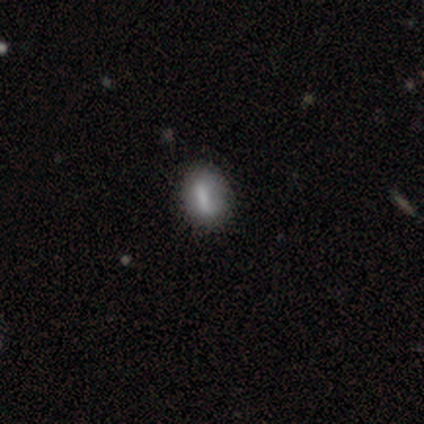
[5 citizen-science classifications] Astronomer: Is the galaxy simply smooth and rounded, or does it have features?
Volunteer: smooth — 60%.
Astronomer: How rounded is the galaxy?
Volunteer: in between — 67%.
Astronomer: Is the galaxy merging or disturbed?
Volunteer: none — 75%.